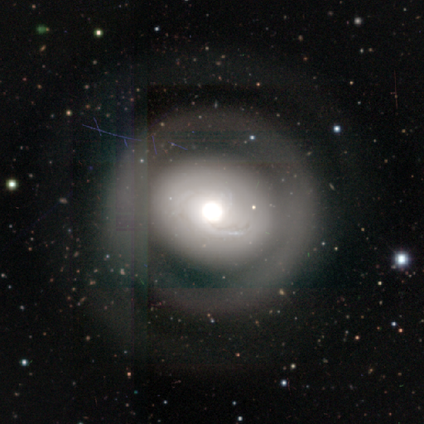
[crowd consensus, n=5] featured or disk 100%, smooth 0%, star or artifact 0%. Down the decision tree: edge-on disk — no (100%); bar — no (100%); spiral arms — yes (60%); spiral arm count — can't tell (67%); spiral winding — tight (33%, tied with medium and loose); bulge size — large (40%, tied with moderate); merging — none (60%).